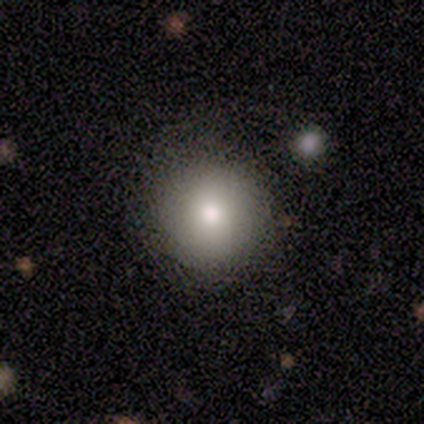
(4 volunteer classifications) Volunteers were most divided on "smooth or featured": smooth: 75%, featured or disk: 25%, star or artifact: 0%. More confident: how rounded — round (100%); merging — none (75%).